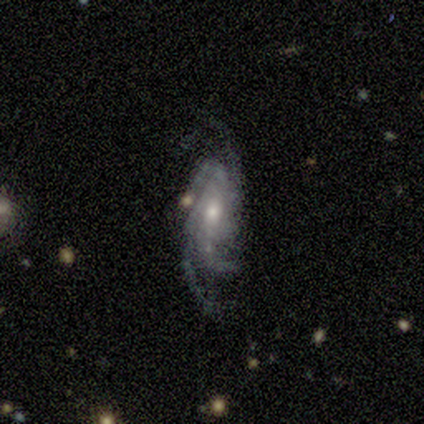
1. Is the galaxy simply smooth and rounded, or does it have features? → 100% featured or disk, 0% smooth, 0% star or artifact.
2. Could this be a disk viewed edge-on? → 100% no, 0% yes.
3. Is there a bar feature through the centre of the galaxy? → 50% weak (tied), 50% no (tied), 0% strong.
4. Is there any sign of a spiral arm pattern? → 100% yes, 0% no.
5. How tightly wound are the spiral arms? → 75% tight, 25% medium, 0% loose.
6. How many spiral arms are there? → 100% 4, 0% 1, 0% 2, 0% 3, 0% more than 4, 0% can't tell.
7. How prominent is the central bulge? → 75% small, 25% moderate, 0% dominant, 0% large, 0% none.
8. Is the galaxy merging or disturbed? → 75% none, 25% minor disturbance, 0% major disturbance, 0% merger.